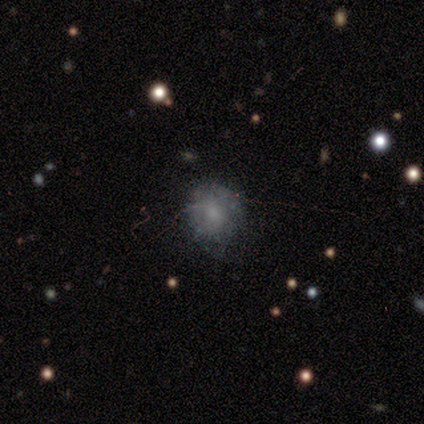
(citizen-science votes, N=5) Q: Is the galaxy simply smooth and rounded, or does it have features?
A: featured or disk — 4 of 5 (80%).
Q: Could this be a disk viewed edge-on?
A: no — 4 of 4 (100%).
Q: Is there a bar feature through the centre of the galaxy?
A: no — 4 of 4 (100%).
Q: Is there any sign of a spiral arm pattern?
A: no — 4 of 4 (100%).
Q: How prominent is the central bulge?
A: moderate — 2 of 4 (50%).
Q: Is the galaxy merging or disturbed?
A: none — 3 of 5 (60%).